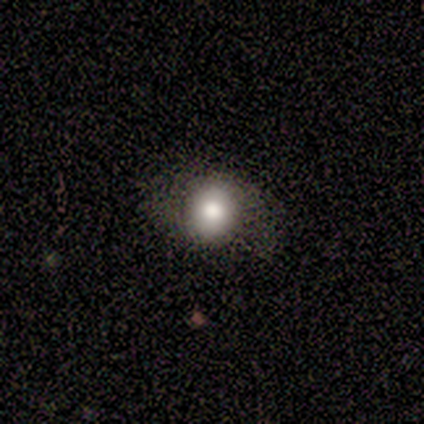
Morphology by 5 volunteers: Smooth or featured: smooth — 100%
How rounded: round — 100%
Merging: minor disturbance — 60% (none — 40%)